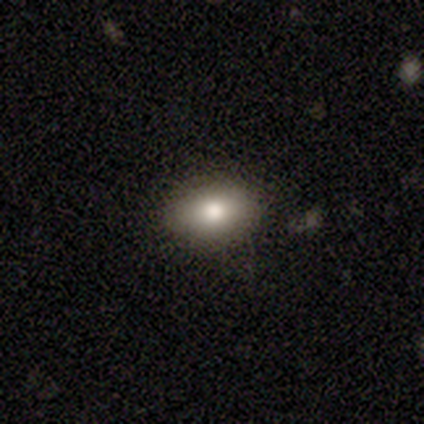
Volunteers were most divided on "merging": none: 75%, minor disturbance: 25%, major disturbance: 0%, merger: 0%. More confident: how rounded — in between (100%); smooth or featured — smooth (80%).